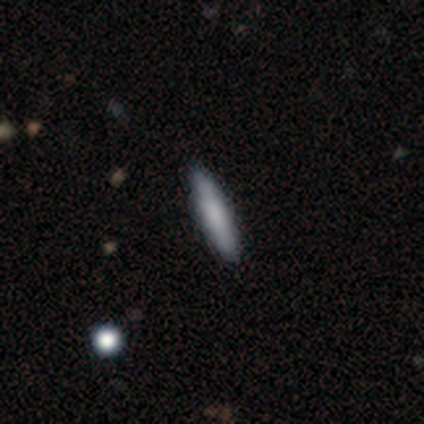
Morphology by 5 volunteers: smooth_or_featured: smooth (p=0.80) [alt: featured or disk p=0.20]
how_rounded: cigar-shaped (p=1.00)
merging: none (p=0.80) [alt: major disturbance p=0.20]